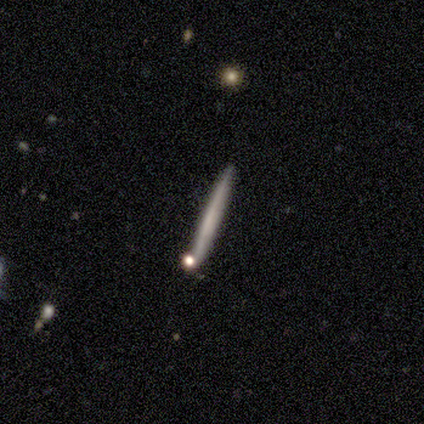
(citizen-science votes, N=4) smooth_or_featured: featured or disk (p=0.75) [alt: star or artifact p=0.25]
disk_edge_on: yes (p=1.00)
edge_on_bulge: none (p=0.67) [alt: boxy p=0.33]
merging: none (p=1.00)